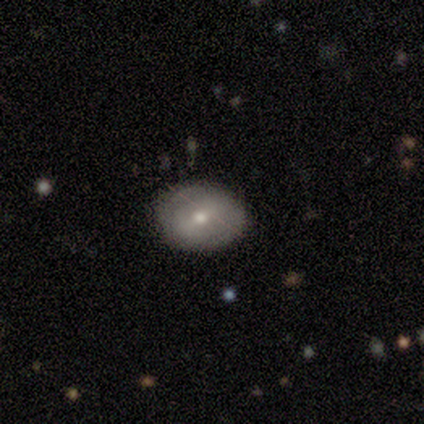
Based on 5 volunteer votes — Smooth or featured: featured or disk — 80% (smooth — 20%)
Edge-on disk: no — 100%
Bar: weak — 75% (strong — 25%)
Spiral arms: yes — 50% (tied with no — 50%)
Spiral winding: tight — 100%
Spiral arm count: 2 — 50% (tied with can't tell — 50%)
Bulge size: moderate — 50% (tied with small — 50%)
Merging: none — 80% (minor disturbance — 20%)